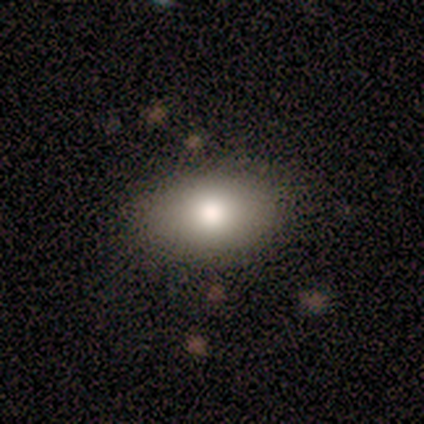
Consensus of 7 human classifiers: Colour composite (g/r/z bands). It shows a smooth galaxy with no disk features (86%) that is in between round and cigar-shaped (100%). Merging: none (86%).